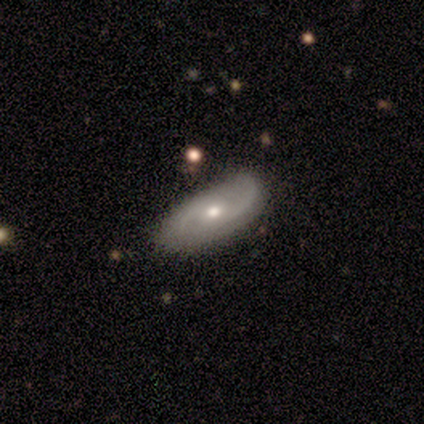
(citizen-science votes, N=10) Smooth or featured? featured or disk (80%)
Edge-on disk? no (100%)
Bar? no (75%)
Spiral arms? yes (75%)
Spiral winding? medium (83%)
Spiral arm count? 2 (83%)
Bulge size? small (75%)
Merging? none (70%)